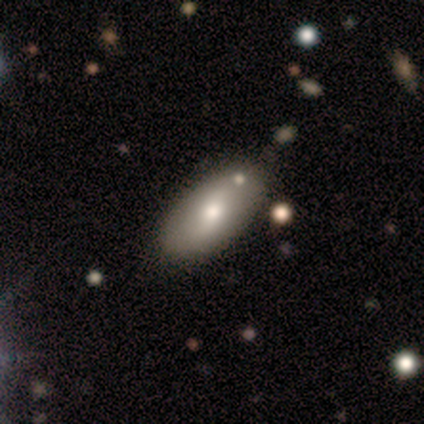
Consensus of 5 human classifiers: smooth 80%, featured or disk 20%, star or artifact 0%. Down the decision tree: how rounded — in between (75%); merging — none (80%).